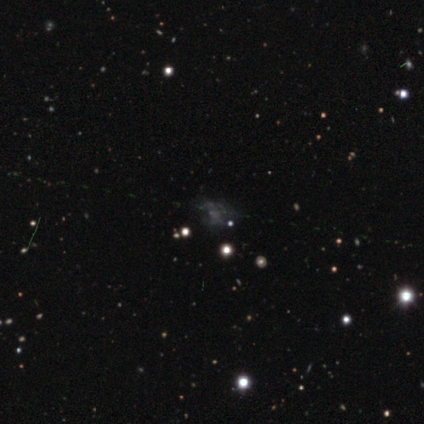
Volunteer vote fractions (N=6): A smooth galaxy with no disk features (50%) that is round (33%, tied with in between and cigar-shaped).

Vote fractions:
- Smooth or featured? smooth: 50% / star or artifact: 33% / featured or disk: 17%
- How rounded? round: 33% (tied) / in between: 33% (tied) / cigar-shaped: 33% (tied)
- Merging? none: 50% / minor disturbance: 25% / merger: 25% / major disturbance: 0%